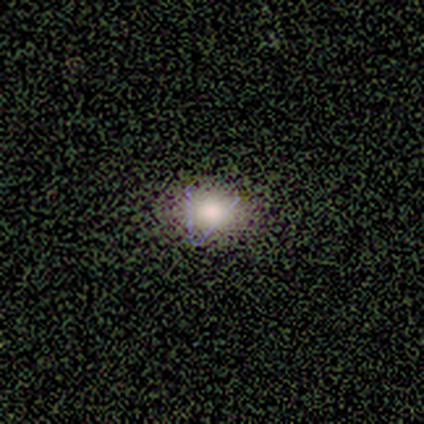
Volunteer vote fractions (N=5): Overall: smooth (80%). How rounded: in between (100%). Merging: none (100%).